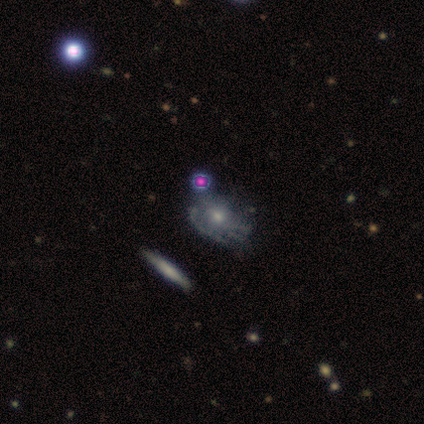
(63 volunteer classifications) Smooth or featured?
  - featured or disk: 73% *
  - star or artifact: 14%
  - smooth: 13%
Edge-on disk?
  - no: 96% *
  - yes: 4%
Bar?
  - no: 80% *
  - weak: 20%
  - strong: 0%
Spiral arms?
  - yes: 61% *
  - no: 39%
Spiral winding?
  - tight: 48% *
  - medium: 33%
  - loose: 19%
Spiral arm count?
  - can't tell: 59% *
  - 3: 33%
  - 2: 4%
  - 4: 4%
  - 1: 0%
  - more than 4: 0%
Bulge size?
  - moderate: 59% *
  - small: 36%
  - large: 2%
  - none: 2%
  - dominant: 0%
Merging?
  - none: 37% *
  - minor disturbance: 28%
  - major disturbance: 20%
  - merger: 15%